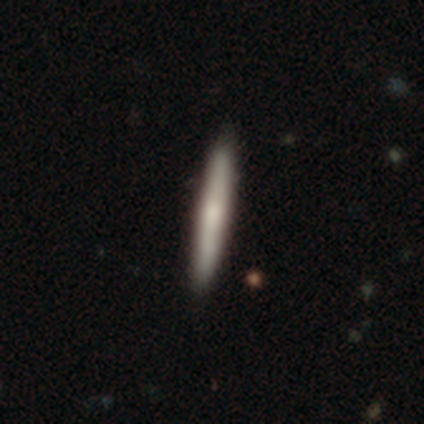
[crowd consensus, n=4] Smooth or featured? smooth (100%)
How rounded? cigar-shaped (100%)
Merging? none (100%)